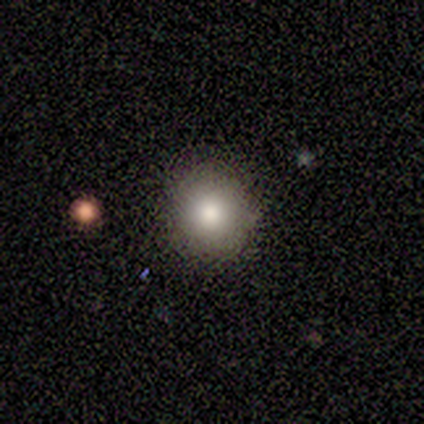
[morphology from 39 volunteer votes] Q: Smooth or featured?
A: smooth (87%); runner-up: star or artifact (10%)
Q: How rounded?
A: round (97%); runner-up: in between (3%)
Q: Merging?
A: none (91%); runner-up: minor disturbance (6%)